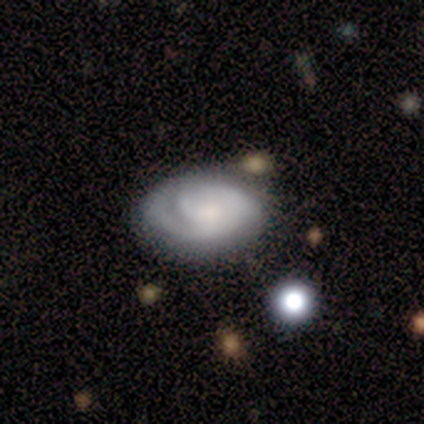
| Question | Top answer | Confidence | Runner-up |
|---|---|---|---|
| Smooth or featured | featured or disk | 80% | smooth (20%) |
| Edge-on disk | no | 100% | — |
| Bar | weak | 50% | tied: no (50%) |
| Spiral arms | yes | 75% | no (25%) |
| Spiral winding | medium | 67% | tight (33%) |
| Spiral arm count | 1 | 33% | tied: 2 (33%), can't tell (33%) |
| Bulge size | small | 75% | none (25%) |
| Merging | none | 100% | — |